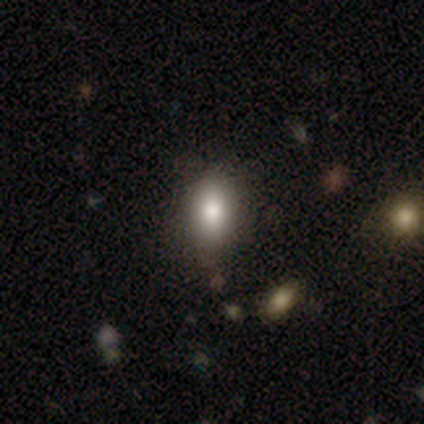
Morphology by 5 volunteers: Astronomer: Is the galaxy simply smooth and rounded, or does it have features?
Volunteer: smooth — 100%.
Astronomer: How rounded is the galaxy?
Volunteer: in between — 80%.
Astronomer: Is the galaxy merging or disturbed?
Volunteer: minor disturbance — 80%.